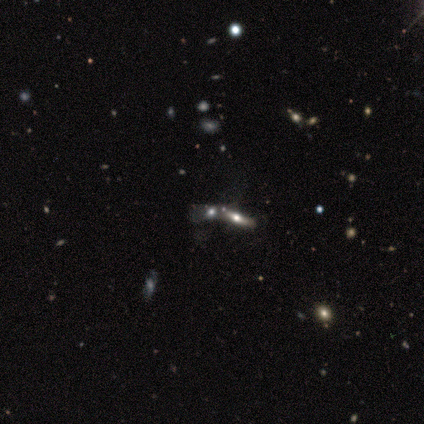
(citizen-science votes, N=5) Smooth or featured?
  - featured or disk: 60% *
  - smooth: 40%
  - star or artifact: 0%
Edge-on disk?
  - yes: 67% *
  - no: 33%
Edge-on bulge?
  - rounded: 100% *
  - boxy: 0%
  - none: 0%
Merging?
  - none: 80% *
  - merger: 20%
  - minor disturbance: 0%
  - major disturbance: 0%